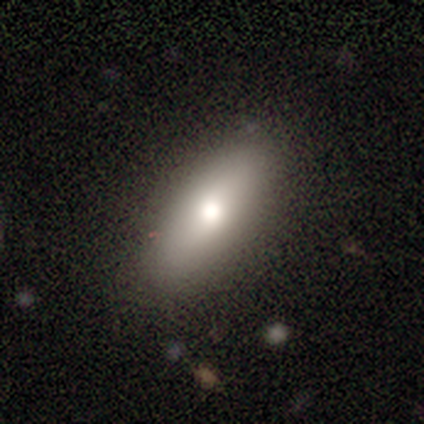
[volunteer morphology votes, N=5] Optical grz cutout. It shows a smooth galaxy with no disk features (60%) that is in between round and cigar-shaped (100%). Merging: none (80%).